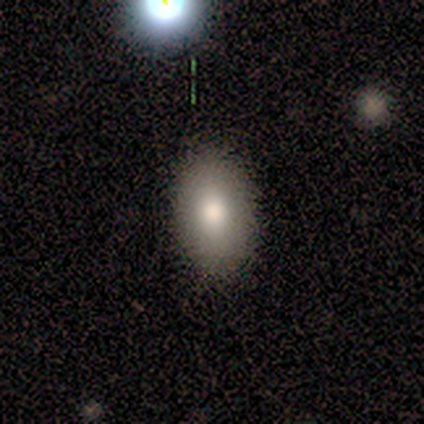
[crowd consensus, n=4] Smooth or featured: smooth — 100%
How rounded: in between — 100%
Merging: none — 100%